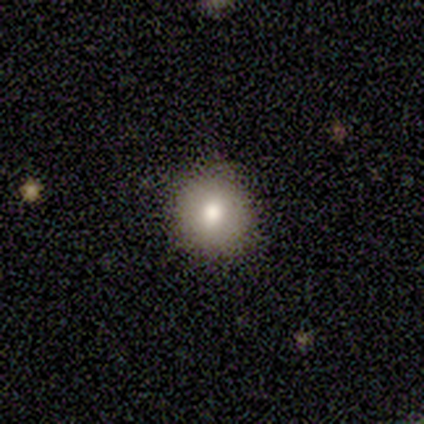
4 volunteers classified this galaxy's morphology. Smooth or featured? smooth (50%, tied with star or artifact)
How rounded? round (50%, tied with in between)
Merging? none (100%)